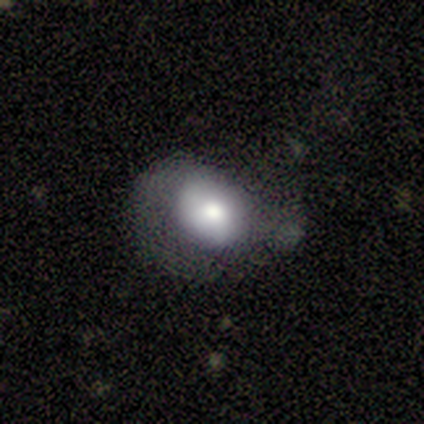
Volunteers were most divided on "smooth or featured": smooth: 60%, featured or disk: 40%, star or artifact: 0%. More confident: how rounded — in between (67%); merging — major disturbance (60%).